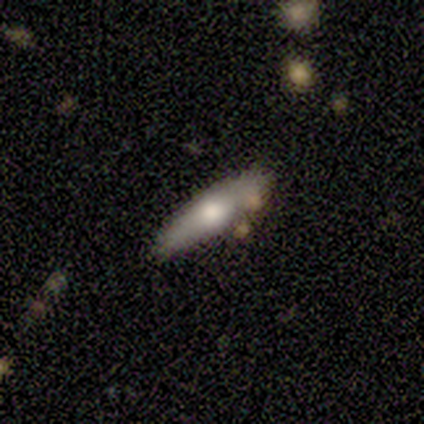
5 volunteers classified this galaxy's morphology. Smooth or featured? featured or disk (80%)
Edge-on disk? yes (75%)
Edge-on bulge? rounded (100%)
Merging? none (80%)